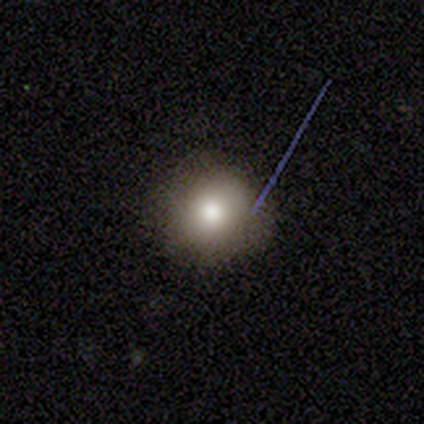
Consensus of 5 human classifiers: This is clearly a smooth galaxy (100%). How rounded: clearly round (100%). Merging: clearly none (80%).